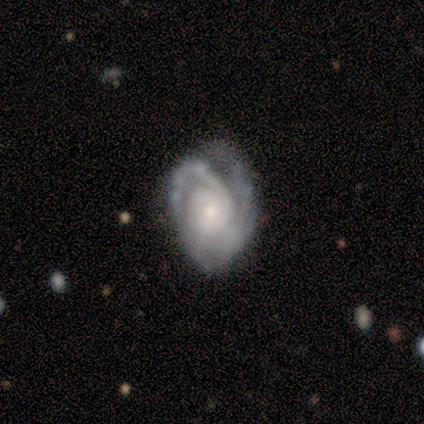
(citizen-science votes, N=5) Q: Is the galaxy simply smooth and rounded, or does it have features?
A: featured or disk — 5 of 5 (100%).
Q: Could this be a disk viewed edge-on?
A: no — 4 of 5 (80%).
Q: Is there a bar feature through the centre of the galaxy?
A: no — 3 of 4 (75%).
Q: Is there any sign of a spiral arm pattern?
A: yes — 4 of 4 (100%).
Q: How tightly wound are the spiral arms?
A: medium — 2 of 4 (50%).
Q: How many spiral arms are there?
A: can't tell — 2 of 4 (50%).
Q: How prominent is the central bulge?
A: small — 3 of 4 (75%).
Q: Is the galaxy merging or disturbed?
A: none — 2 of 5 (40%, tied with minor disturbance).